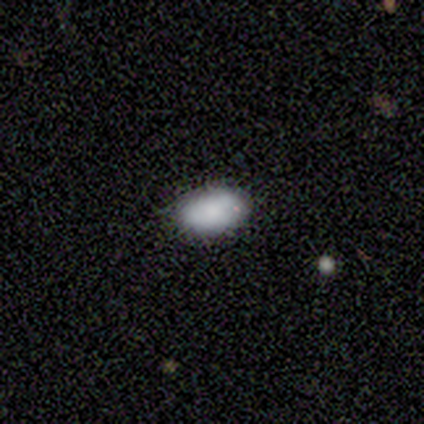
A smooth galaxy with no disk features (90%) that is in between round and cigar-shaped (100%).

Vote fractions:
- Smooth or featured? smooth: 90% / featured or disk: 10% / star or artifact: 0%
- How rounded? in between: 100% / round: 0% / cigar-shaped: 0%
- Merging? none: 90% / minor disturbance: 10% / major disturbance: 0% / merger: 0%